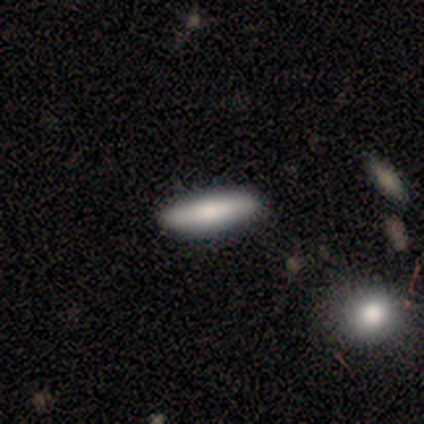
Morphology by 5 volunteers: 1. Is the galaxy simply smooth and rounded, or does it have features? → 100% smooth, 0% featured or disk, 0% star or artifact.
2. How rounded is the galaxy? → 100% cigar-shaped, 0% round, 0% in between.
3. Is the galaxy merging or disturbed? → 100% none, 0% minor disturbance, 0% major disturbance, 0% merger.